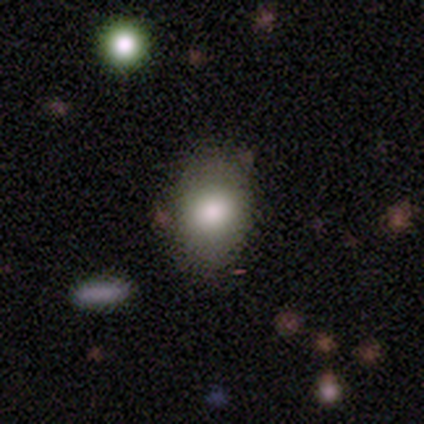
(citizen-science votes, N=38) Smooth or featured? 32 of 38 (84%) said smooth. How rounded? 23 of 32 (72%) said in between. Merging? 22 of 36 (61%) said none.